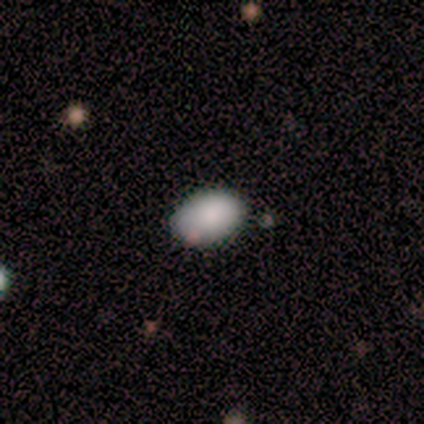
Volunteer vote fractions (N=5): Smooth or featured? 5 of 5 (100%) said smooth. How rounded? 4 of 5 (80%) said in between. Merging? 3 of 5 (60%) said none.